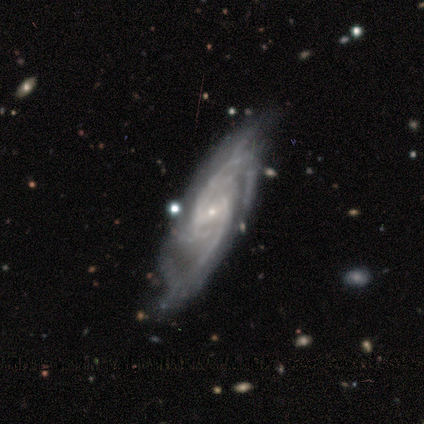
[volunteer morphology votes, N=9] Smooth or featured? featured or disk (100%)
Edge-on disk? no (100%)
Bar? weak (89%)
Spiral arms? yes (100%)
Spiral winding? tight (44%, tied with medium)
Spiral arm count? 2 (56%)
Bulge size? small (78%)
Merging? none (56%)